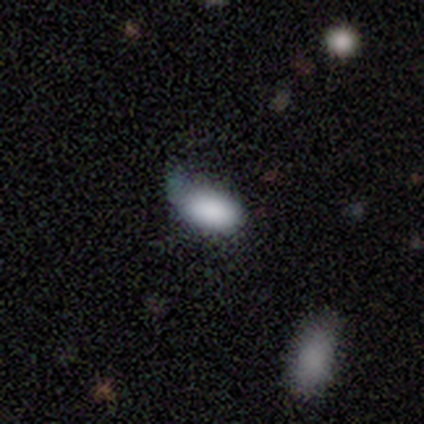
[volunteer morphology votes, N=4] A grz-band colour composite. It shows a smooth galaxy with no disk features (100%) that is in between round and cigar-shaped (75%). Merging: minor disturbance (50%).